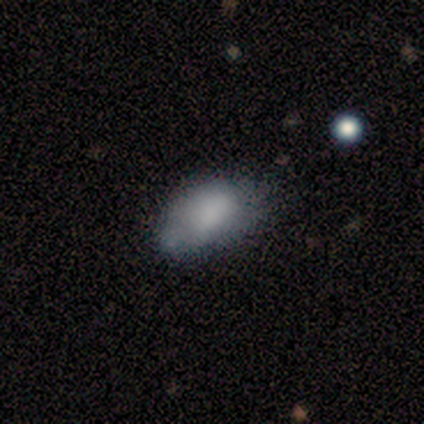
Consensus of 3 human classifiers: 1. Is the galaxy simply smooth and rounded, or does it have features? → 33% smooth (tied), 33% featured or disk (tied), 33% star or artifact (tied).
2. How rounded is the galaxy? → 100% in between, 0% round, 0% cigar-shaped.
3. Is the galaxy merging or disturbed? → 50% minor disturbance (tied), 50% major disturbance (tied), 0% none, 0% merger.